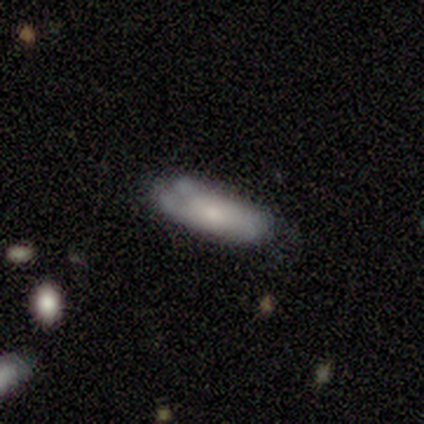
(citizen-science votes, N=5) smooth 100%, featured or disk 0%, star or artifact 0%. Down the decision tree: how rounded — in between (60%); merging — none (40%, tied with minor disturbance).